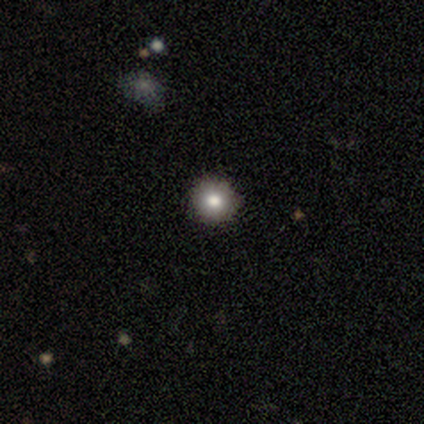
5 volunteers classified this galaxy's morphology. Q: Smooth or featured?
A: smooth (100%)
Q: How rounded?
A: round (100%)
Q: Merging?
A: none (100%)